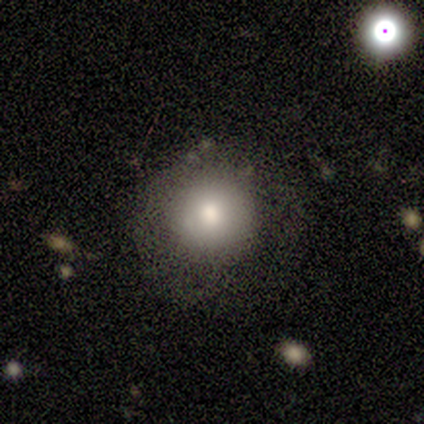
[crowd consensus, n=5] A smooth galaxy with no disk features (100%) that is round (100%). Merging: none (80%).